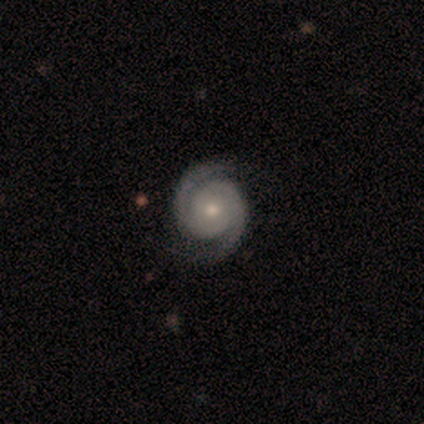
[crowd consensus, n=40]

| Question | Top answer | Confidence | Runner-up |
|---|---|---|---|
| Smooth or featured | featured or disk | 100% | — |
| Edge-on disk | no | 100% | — |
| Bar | no | 85% | weak (12%) |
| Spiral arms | yes | 100% | — |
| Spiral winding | tight | 65% | medium (32%) |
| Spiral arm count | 2 | 98% | 3 (2%) |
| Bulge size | moderate | 48% | tied: small (48%) |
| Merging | none | 62% | minor disturbance (5%) |